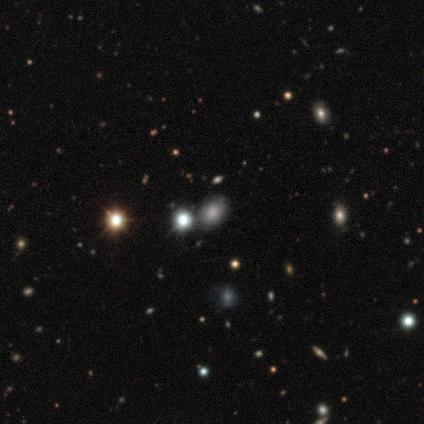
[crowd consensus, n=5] Smooth or featured? smooth (40%, tied with star or artifact)
How rounded? round (50%, tied with in between)
Merging? none (67%)